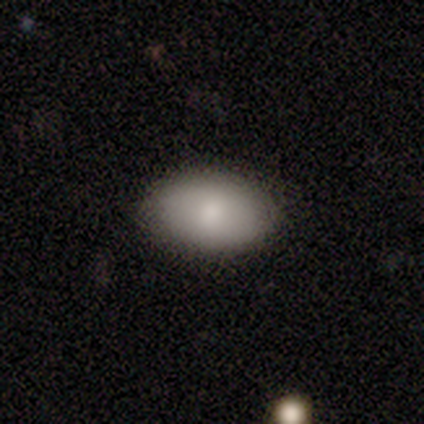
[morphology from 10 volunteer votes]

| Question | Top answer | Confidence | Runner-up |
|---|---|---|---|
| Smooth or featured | smooth | 100% | — |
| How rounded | in between | 80% | round (20%) |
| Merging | none | 90% | minor disturbance (10%) |